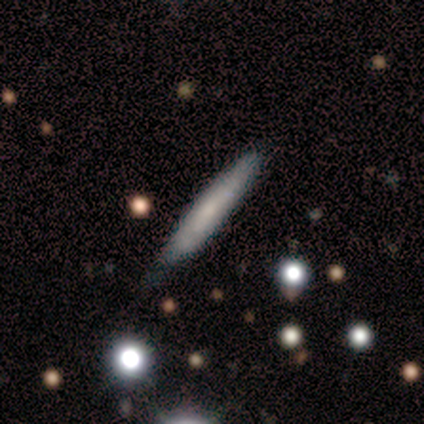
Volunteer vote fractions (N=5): Smooth or featured? 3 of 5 (60%) said featured or disk. Edge-on disk? 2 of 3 (67%) said yes. Edge-on bulge? 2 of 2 (100%) said none. Merging? 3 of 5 (60%) said none.